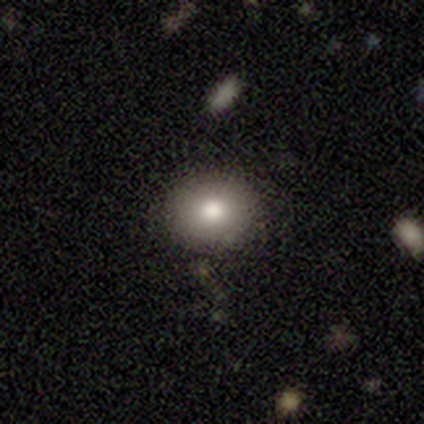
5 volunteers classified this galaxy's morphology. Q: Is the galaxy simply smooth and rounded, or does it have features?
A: smooth — 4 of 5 (80%).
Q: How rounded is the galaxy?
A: round — 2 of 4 (50%, tied with in between).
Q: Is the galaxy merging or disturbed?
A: none — 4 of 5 (80%).